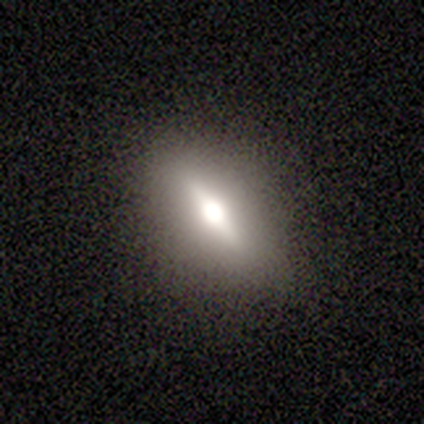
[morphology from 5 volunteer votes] Smooth or featured? featured or disk (80%)
Edge-on disk? yes (50%, tied with no)
Edge-on bulge? rounded (100%)
Merging? none (100%)